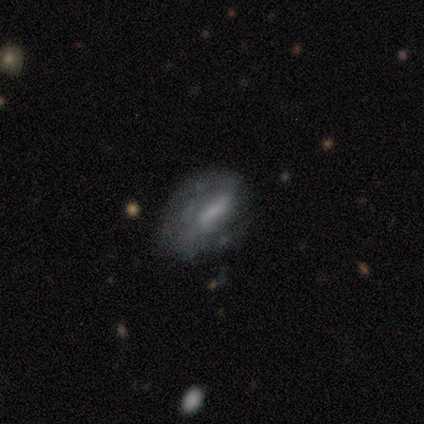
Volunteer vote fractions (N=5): smooth-or-featured: smooth: 60% | featured or disk: 20% | star or artifact: 20%
  how-rounded: in between: 100% | round: 0% | cigar-shaped: 0%
  merging: minor disturbance: 50% | none: 25% | major disturbance: 25% | merger: 0%